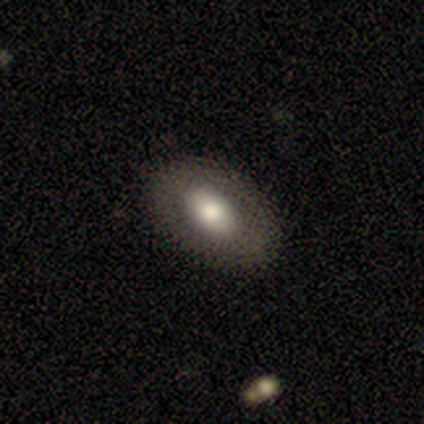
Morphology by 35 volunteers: This appears to be a smooth galaxy with no disk features (66%) that is in between round and cigar-shaped (91%). Merging: none (88%).